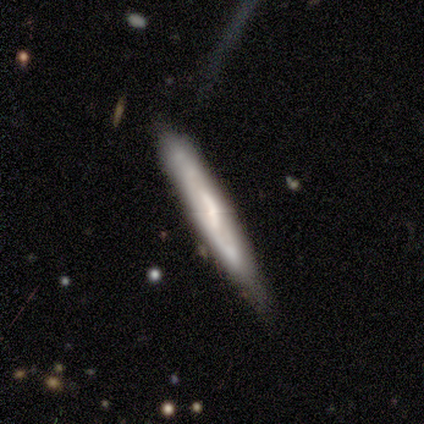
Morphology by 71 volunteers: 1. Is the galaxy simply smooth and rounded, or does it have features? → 65% featured or disk, 27% smooth, 8% star or artifact.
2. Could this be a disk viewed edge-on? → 70% yes, 30% no.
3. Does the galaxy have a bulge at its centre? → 44% none, 38% boxy, 19% rounded.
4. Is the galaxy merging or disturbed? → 54% none, 37% minor disturbance, 5% major disturbance, 5% merger.